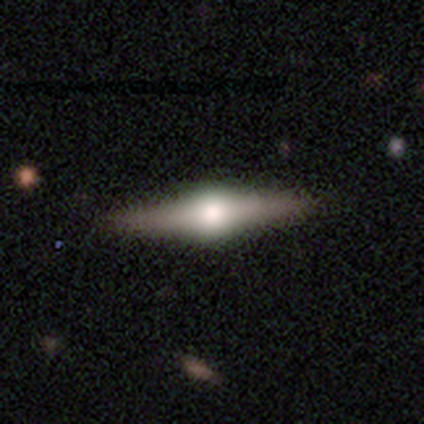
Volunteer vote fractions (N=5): smooth_or_featured: featured or disk (p=0.60) [alt: smooth p=0.40]
disk_edge_on: yes (p=1.00)
edge_on_bulge: rounded (p=1.00)
merging: none (p=0.60) [alt: minor disturbance p=0.40]